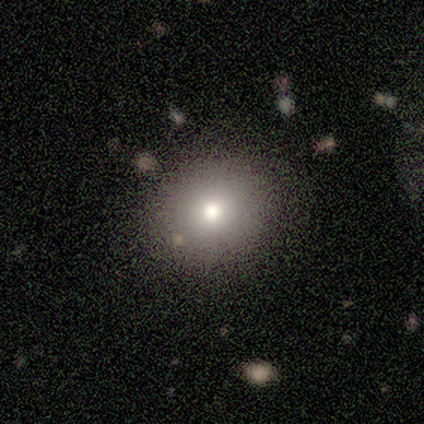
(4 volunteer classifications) This is clearly a smooth galaxy (100%). How rounded: likely round (75%). Merging: clearly none (100%).